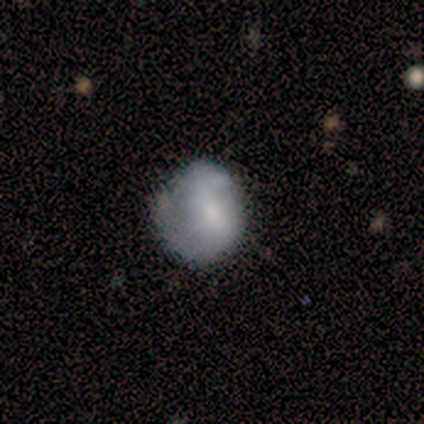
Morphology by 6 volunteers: Volunteers were most divided on "merging": none: 80%, minor disturbance: 20%, major disturbance: 0%, merger: 0%. More confident: how rounded — round (100%); smooth or featured — smooth (83%).